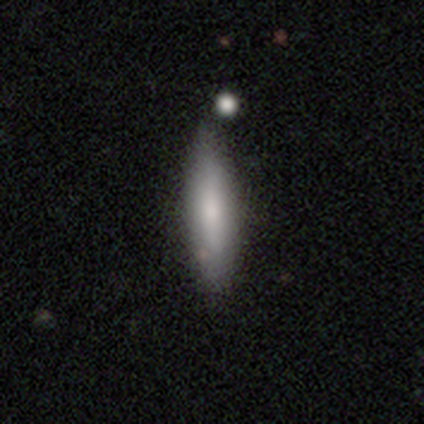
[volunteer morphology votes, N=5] smooth-or-featured: smooth: 80% | featured or disk: 20% | star or artifact: 0%
  how-rounded: cigar-shaped: 75% | in between: 25% | round: 0%
  merging: none: 80% | major disturbance: 20% | minor disturbance: 0% | merger: 0%